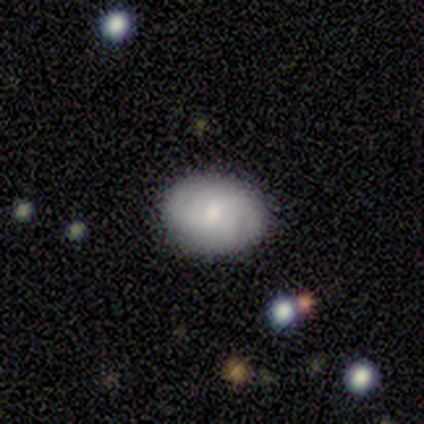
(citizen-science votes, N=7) Smooth or featured? 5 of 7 (71%) said featured or disk. Edge-on disk? 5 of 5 (100%) said no. Bar? 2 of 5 (40%, tied with no) said weak. Spiral arms? 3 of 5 (60%) said yes. Spiral winding? 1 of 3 (33%, tied with medium and loose) said tight. Spiral arm count? 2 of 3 (67%) said 2. Bulge size? 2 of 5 (40%, tied with small) said large. Merging? 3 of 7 (43%, tied with minor disturbance) said none.